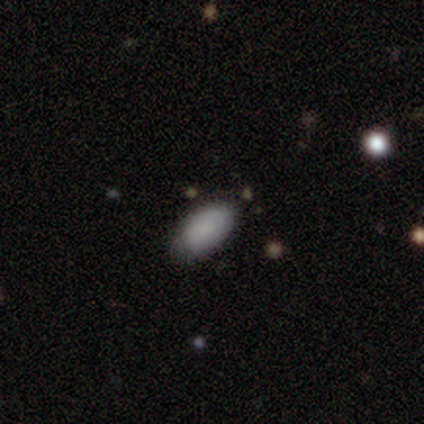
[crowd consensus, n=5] A smooth galaxy with no disk features (100%) that is in between round and cigar-shaped (100%). Merging: none (80%).